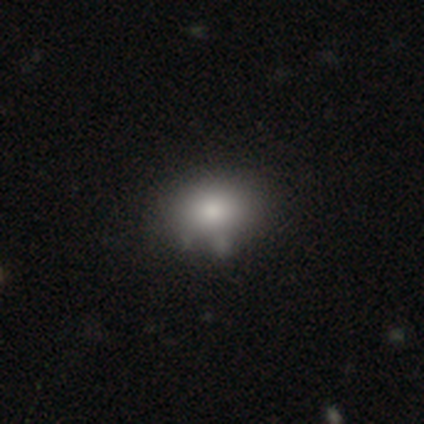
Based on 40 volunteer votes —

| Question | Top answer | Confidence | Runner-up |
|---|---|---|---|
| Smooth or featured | smooth | 92% | featured or disk (5%) |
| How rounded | in between | 68% | round (32%) |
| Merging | none | 41% | minor disturbance (13%) |